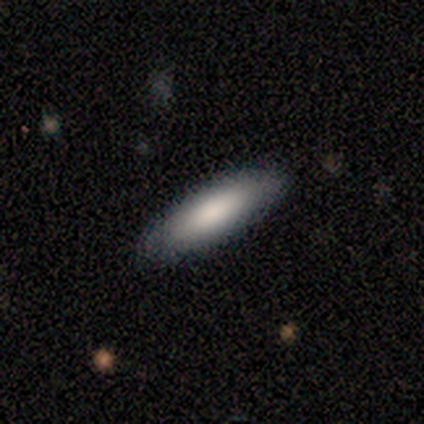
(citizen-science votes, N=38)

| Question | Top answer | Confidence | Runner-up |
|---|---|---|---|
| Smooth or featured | smooth | 84% | featured or disk (13%) |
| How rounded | cigar-shaped | 53% | in between (47%) |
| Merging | none | 92% | minor disturbance (5%) |